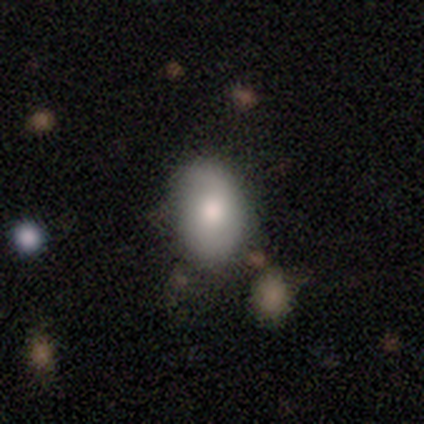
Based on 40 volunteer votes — A smooth galaxy with no disk features (82%) that is in between round and cigar-shaped (82%).

Vote fractions:
- Smooth or featured? smooth: 82% / featured or disk: 12% / star or artifact: 5%
- How rounded? in between: 82% / round: 18% / cigar-shaped: 0%
- Merging? none: 71% / minor disturbance: 26% / merger: 3% / major disturbance: 0%